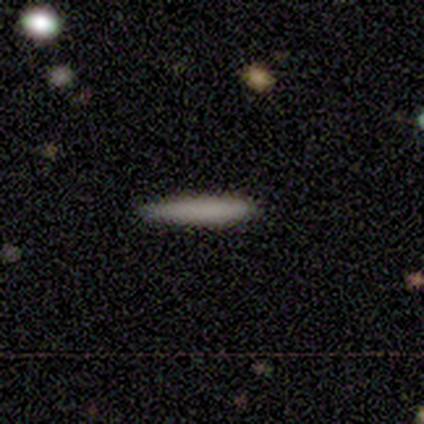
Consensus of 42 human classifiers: Overall: smooth (83%). How rounded: cigar-shaped (97%). Merging: none (92%).